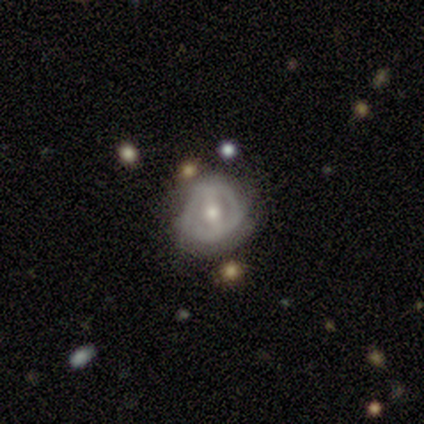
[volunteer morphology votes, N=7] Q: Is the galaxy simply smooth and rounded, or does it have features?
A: featured or disk — 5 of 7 (71%).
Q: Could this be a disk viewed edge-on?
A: no — 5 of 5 (100%).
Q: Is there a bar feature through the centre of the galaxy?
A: strong — 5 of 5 (100%).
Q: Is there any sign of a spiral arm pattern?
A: no — 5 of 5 (100%).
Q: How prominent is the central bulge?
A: moderate — 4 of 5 (80%).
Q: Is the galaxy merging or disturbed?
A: none — 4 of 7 (57%).